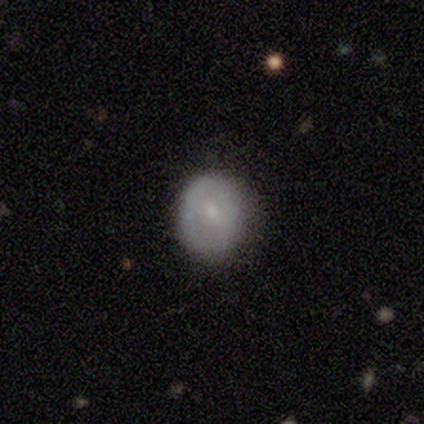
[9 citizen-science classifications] Smooth or featured? 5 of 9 (56%) said smooth. How rounded? 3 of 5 (60%) said round. Merging? 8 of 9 (89%) said none.